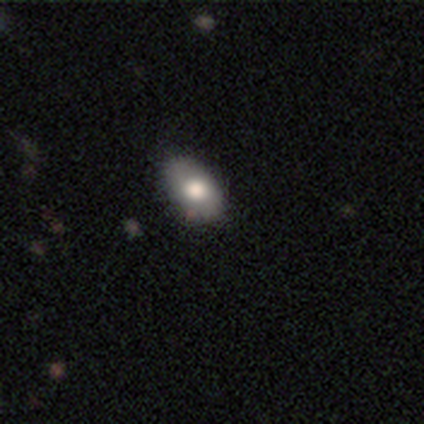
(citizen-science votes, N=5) smooth-or-featured: smooth: 100% | featured or disk: 0% | star or artifact: 0%
  how-rounded: in between: 100% | round: 0% | cigar-shaped: 0%
  merging: none: 80% | minor disturbance: 20% | major disturbance: 0% | merger: 0%